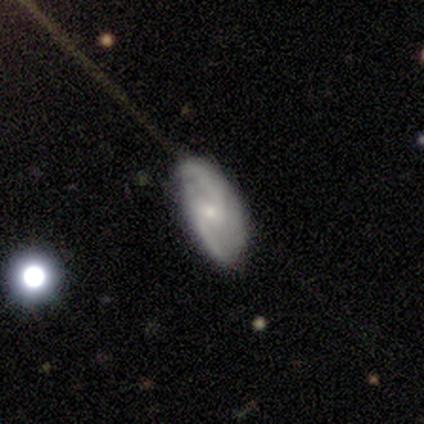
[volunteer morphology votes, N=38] This appears to be a featured or disk galaxy (79%) with a weak bar (63%), 2 (82%) medium (50%) spiral arms (93%) and a small central bulge (73%). Merging: none (69%).